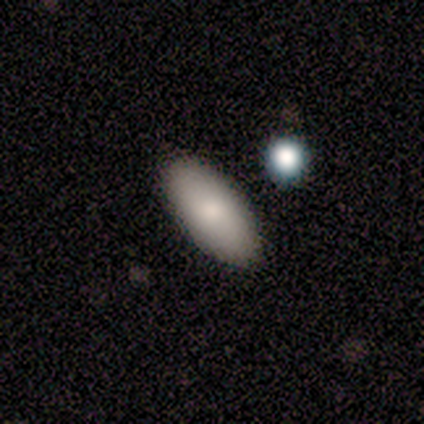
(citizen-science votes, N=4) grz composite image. It shows a smooth galaxy with no disk features (100%) that is in between round and cigar-shaped (75%). Merging: none (100%).